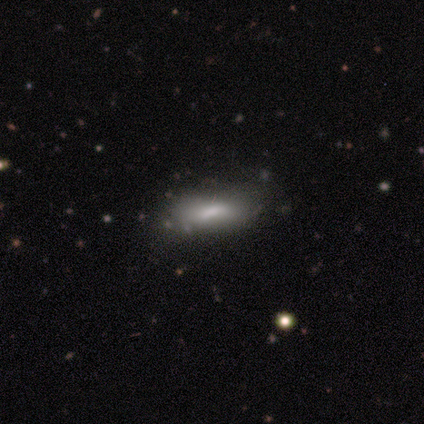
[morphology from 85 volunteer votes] This appears to be a smooth galaxy with no disk features (79%) that is in between round and cigar-shaped (52%). Merging: none (71%).